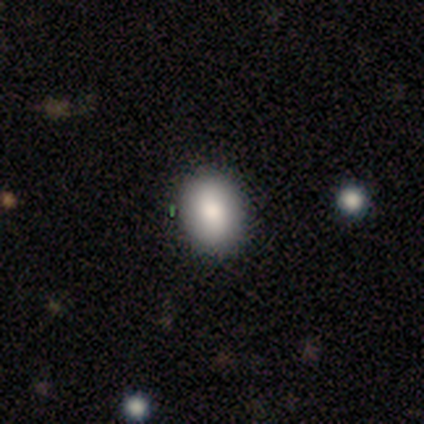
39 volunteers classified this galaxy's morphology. Smooth or featured: smooth — 85% (featured or disk — 13%)
How rounded: in between — 67% (round — 30%)
Merging: none — 84% (minor disturbance — 13%)